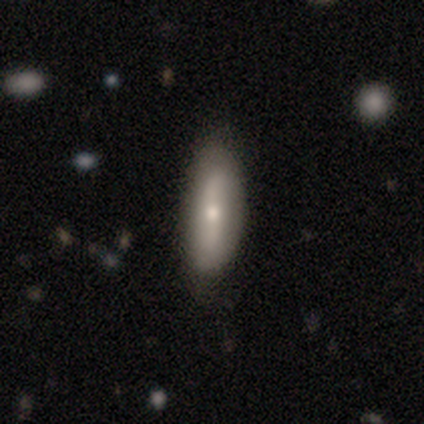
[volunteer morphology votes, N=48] A smooth galaxy with no disk features (62%) that is in between round and cigar-shaped (57%). Merging: none (77%).